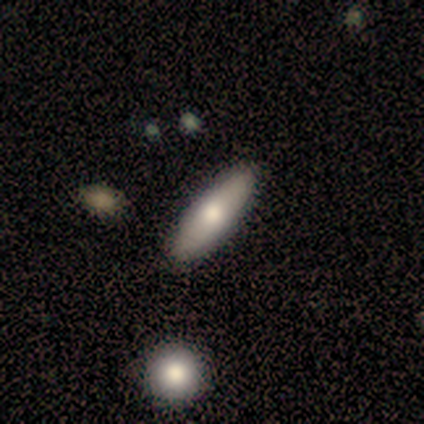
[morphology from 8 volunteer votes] smooth-or-featured: smooth: 75% | featured or disk: 25% | star or artifact: 0%
  how-rounded: cigar-shaped: 67% | in between: 33% | round: 0%
  merging: none: 88% | minor disturbance: 12% | major disturbance: 0% | merger: 0%